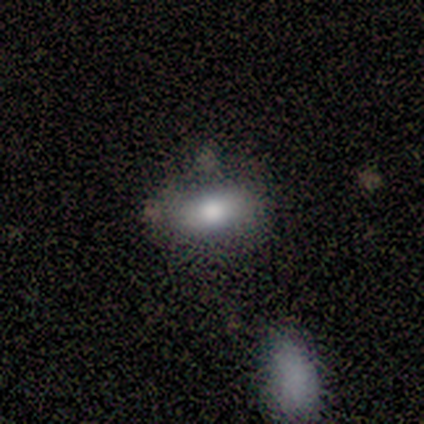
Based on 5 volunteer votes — smooth 60%, featured or disk 40%, star or artifact 0%. Down the decision tree: how rounded — in between (67%); merging — none (80%).